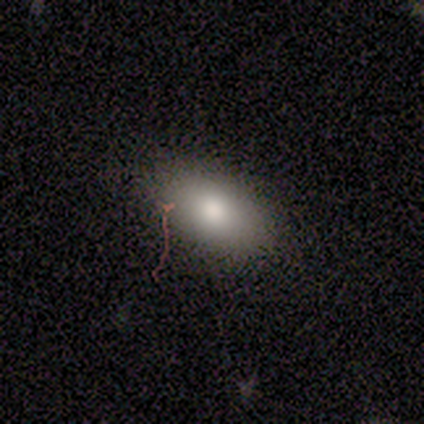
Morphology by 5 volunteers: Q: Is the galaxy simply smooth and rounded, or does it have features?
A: smooth — 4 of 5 (80%).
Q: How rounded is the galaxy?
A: in between — 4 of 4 (100%).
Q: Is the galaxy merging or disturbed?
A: none — 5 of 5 (100%).